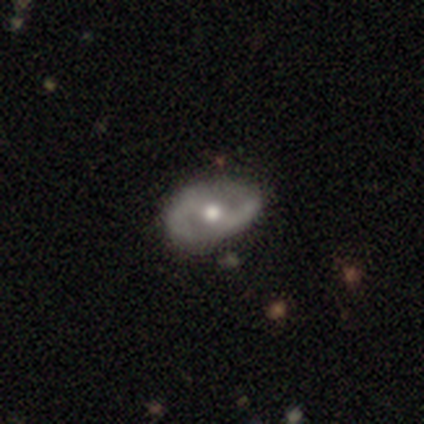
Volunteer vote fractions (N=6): A featured or disk galaxy (83%) with a weak bar (60%), 2 (100%) medium (75%) spiral arms (80%) and a moderate central bulge (100%). Merging: none (67%).